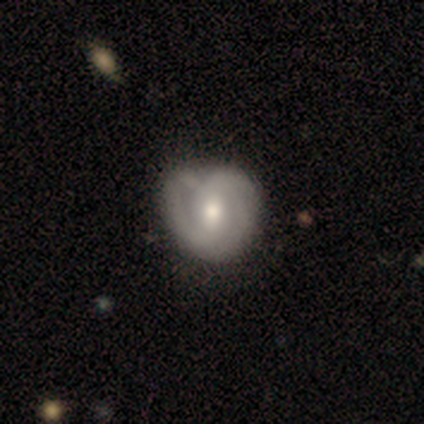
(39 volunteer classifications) Smooth or featured? featured or disk (82%)
Edge-on disk? no (100%)
Bar? weak (44%)
Spiral arms? yes (84%)
Spiral winding? tight (37%, tied with medium)
Spiral arm count? 2 (59%)
Bulge size? moderate (59%)
Merging? none (29%)